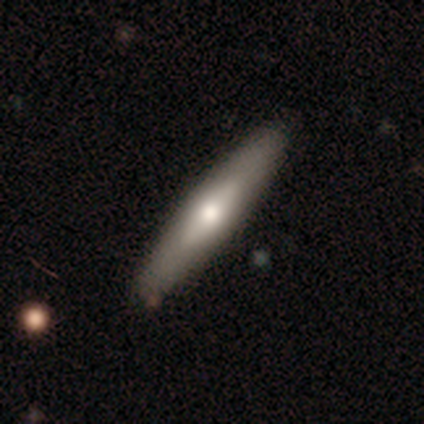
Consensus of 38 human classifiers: Volunteers were most divided on "smooth or featured": smooth: 55%, featured or disk: 39%, star or artifact: 5%. More confident: how rounded — cigar-shaped (100%); merging — none (92%).